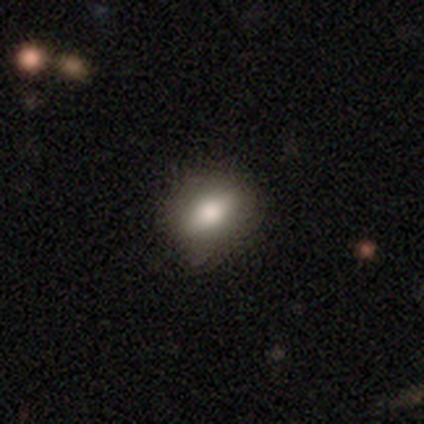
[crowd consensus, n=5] Volunteers were most divided on "how rounded": round: 60%, in between: 40%, cigar-shaped: 0%. More confident: smooth or featured — smooth (100%); merging — none (100%).